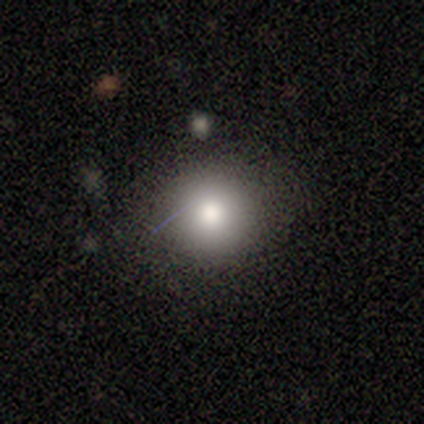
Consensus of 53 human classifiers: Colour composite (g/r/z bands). It shows a smooth galaxy with no disk features (77%) that is round (85%). Merging: none (81%).